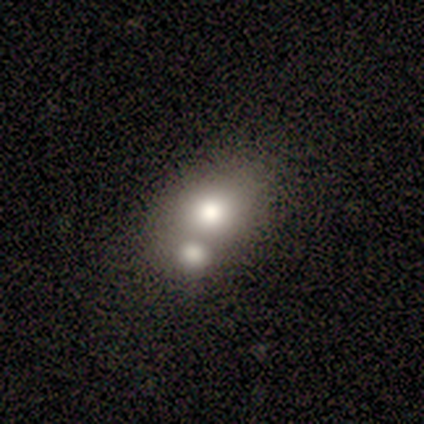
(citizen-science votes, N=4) smooth-or-featured: smooth: 50% | featured or disk: 25% | star or artifact: 25%
  how-rounded: round: 50% (tied) | in between: 50% (tied) | cigar-shaped: 0%
  merging: none: 67% | merger: 33% | minor disturbance: 0% | major disturbance: 0%